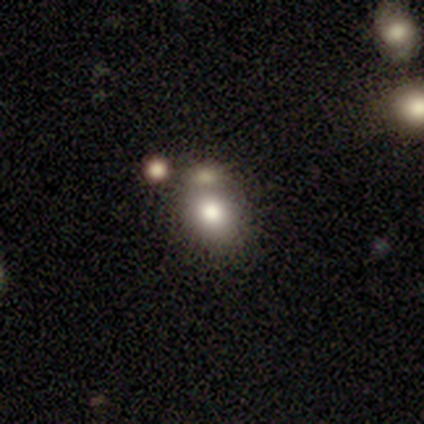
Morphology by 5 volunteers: Q: Smooth or featured?
A: smooth (100%)
Q: How rounded?
A: round (60%); runner-up: in between (40%)
Q: Merging?
A: none (40%); tied with: minor disturbance (40%)